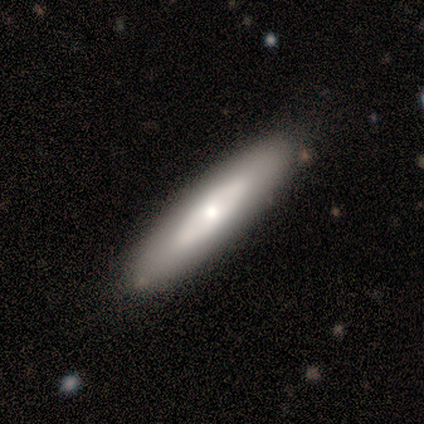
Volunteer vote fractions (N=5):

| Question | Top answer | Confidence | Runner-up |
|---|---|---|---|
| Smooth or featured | featured or disk | 100% | — |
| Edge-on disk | yes | 60% | no (40%) |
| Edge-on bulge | none | 67% | rounded (33%) |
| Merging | none | 80% | minor disturbance (20%) |